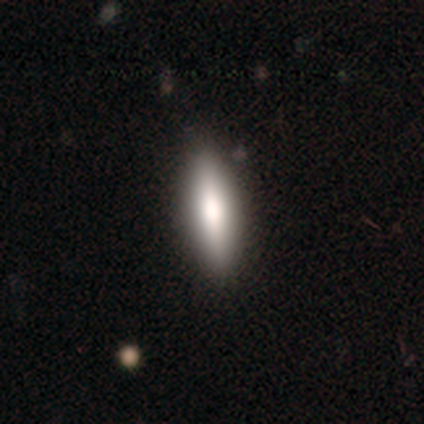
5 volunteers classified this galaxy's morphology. This appears to be a smooth galaxy with no disk features (100%) that is in between round and cigar-shaped (60%). Merging: none (80%).